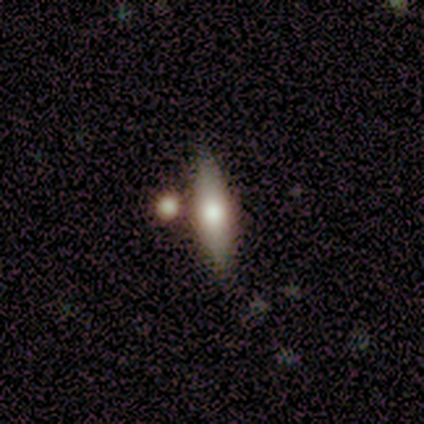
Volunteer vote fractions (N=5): Volunteers were most divided on "smooth or featured" (2-way tie): smooth: 40%, featured or disk: 40%, star or artifact: 20%. More confident: how rounded — cigar-shaped (100%); merging — none (75%).